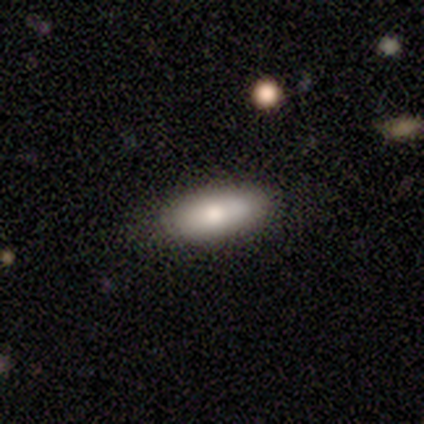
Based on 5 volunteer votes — smooth-or-featured: smooth: 100% | featured or disk: 0% | star or artifact: 0%
  how-rounded: in between: 100% | round: 0% | cigar-shaped: 0%
  merging: none: 80% | minor disturbance: 20% | major disturbance: 0% | merger: 0%